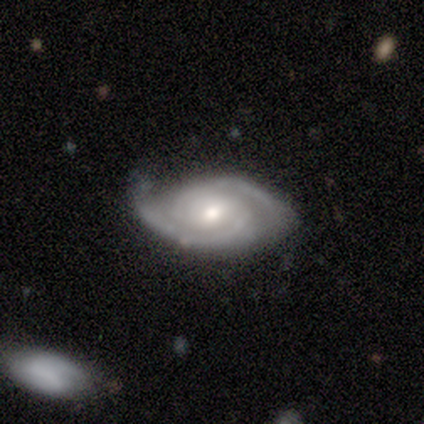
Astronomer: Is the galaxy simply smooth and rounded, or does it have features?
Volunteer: featured or disk — 100%.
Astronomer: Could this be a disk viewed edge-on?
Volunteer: no — 100%.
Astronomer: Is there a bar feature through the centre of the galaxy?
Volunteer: weak — 80%.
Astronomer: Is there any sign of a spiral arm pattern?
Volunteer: yes — 100%.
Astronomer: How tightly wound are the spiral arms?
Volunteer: medium — 60% (runner-up: tight, 40%).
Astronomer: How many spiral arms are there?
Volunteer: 2 — 80%.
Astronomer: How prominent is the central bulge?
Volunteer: moderate — 60% (runner-up: small, 40%).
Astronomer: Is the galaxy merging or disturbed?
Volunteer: none — 80%.